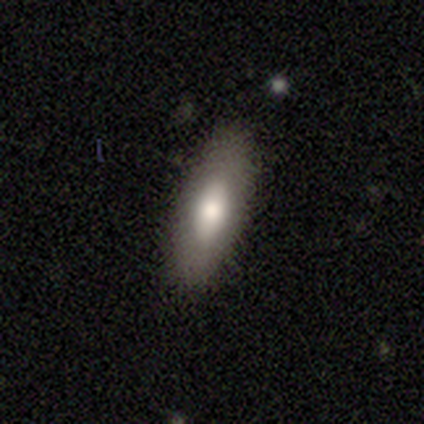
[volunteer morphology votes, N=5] This appears to be a smooth galaxy with no disk features (80%) that is in between round and cigar-shaped (50%, tied with cigar-shaped). Merging: none (100%).